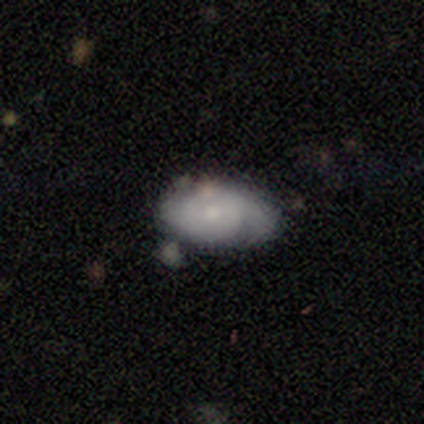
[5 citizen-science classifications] smooth-or-featured: featured or disk: 100% | smooth: 0% | star or artifact: 0%
  disk-edge-on: no: 100% | yes: 0%
    bar: no: 60% | weak: 40% | strong: 0%
    has-spiral-arms: yes: 80% | no: 20%
      spiral-winding: tight: 100% | medium: 0% | loose: 0%
      spiral-arm-count: can't tell: 50% | 2: 25% | 3: 25% | 1: 0% | 4: 0% | more than 4: 0%
    bulge-size: small: 60% | moderate: 40% | dominant: 0% | large: 0% | none: 0%
  merging: minor disturbance: 60% | none: 40% | major disturbance: 0% | merger: 0%